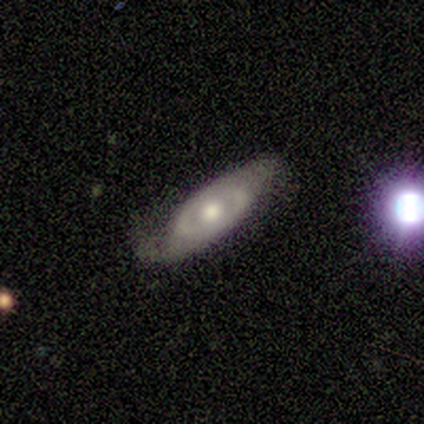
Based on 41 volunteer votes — Overall: featured or disk (80%). Edge-on disk: no (85%). Bar: no (89%). Spiral arms: yes (57%; no 43%). Spiral arm count: 2 (69%). Spiral winding: medium (44%; tight 31%). Bulge size: moderate (68%). Merging: none (61%; minor disturbance 29%).